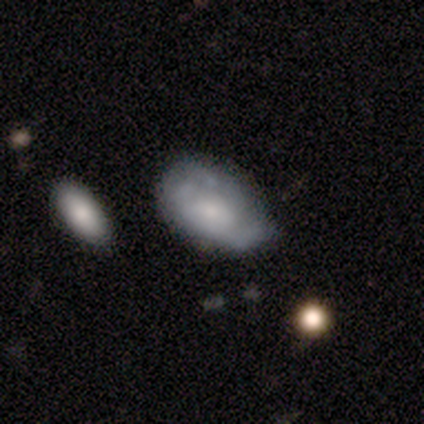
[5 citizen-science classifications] A featured or disk galaxy (80%) with no bar (75%), no spiral arms (75%) and a small central bulge (50%).

Vote fractions:
- Smooth or featured? featured or disk: 80% / smooth: 20% / star or artifact: 0%
- Edge-on disk? no: 100% / yes: 0%
- Bar? no: 75% / weak: 25% / strong: 0%
- Spiral arms? no: 75% / yes: 25%
- Bulge size? small: 50% / moderate: 25% / none: 25% / dominant: 0% / large: 0%
- Merging? none: 40% (tied) / minor disturbance: 40% (tied) / major disturbance: 20% / merger: 0%